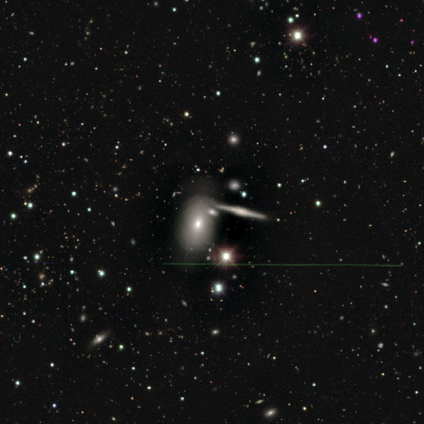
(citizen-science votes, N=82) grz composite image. It shows a featured or disk galaxy (43%) with no bar (89%), no spiral arms (95%) and a moderate central bulge (63%). Merging: none (61%).